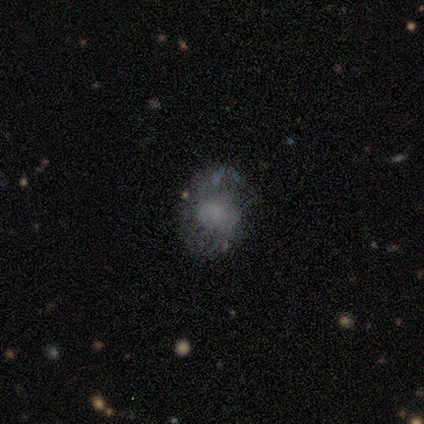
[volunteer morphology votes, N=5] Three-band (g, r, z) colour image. It shows a smooth galaxy with no disk features (100%) that is round (80%). Merging: minor disturbance (60%).